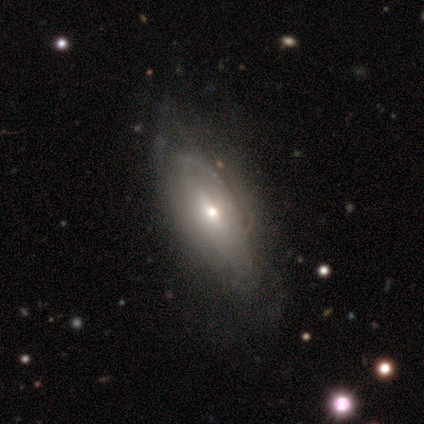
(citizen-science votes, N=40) Volunteers were most divided on "bulge size": moderate: 54%, small: 46%, dominant: 0%, large: 0%, none: 0%. More confident: spiral arm count — can't tell (83%); smooth or featured — featured or disk (78%); edge-on disk — no (77%); spiral arms — yes (75%); spiral winding — tight (72%); bar — no (62%); merging — none (61%).